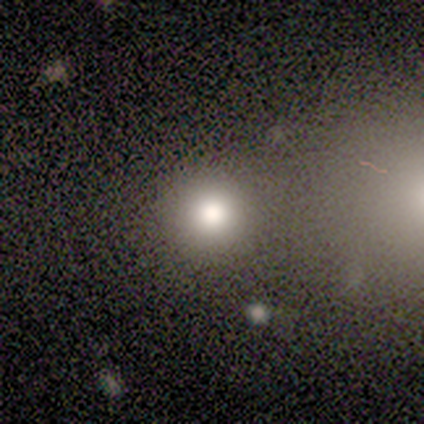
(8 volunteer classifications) Smooth or featured?
  - smooth: 75% *
  - star or artifact: 25%
  - featured or disk: 0%
How rounded?
  - round: 100% *
  - in between: 0%
  - cigar-shaped: 0%
Merging?
  - none: 100% *
  - minor disturbance: 0%
  - major disturbance: 0%
  - merger: 0%